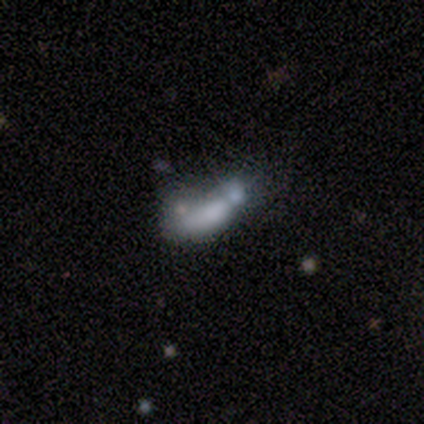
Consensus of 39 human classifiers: Smooth or featured? smooth (49%)
How rounded? in between (74%)
Merging? merger (56%)